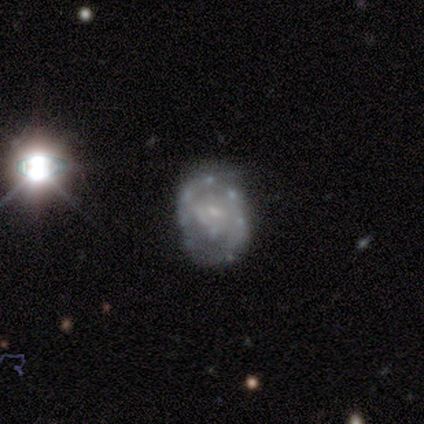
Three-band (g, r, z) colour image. It shows a featured or disk galaxy (100%) with a weak bar (50%, tied with no), no spiral arms (67%) and a small central bulge (67%). Merging: minor disturbance (67%).